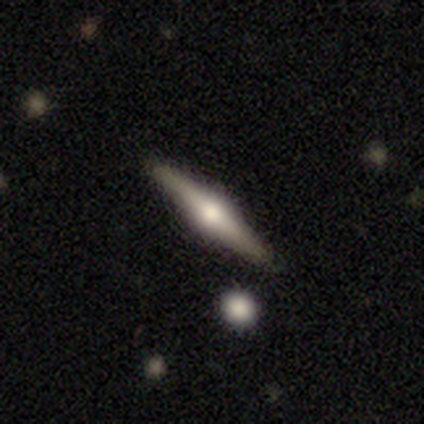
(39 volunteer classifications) smooth-or-featured: featured or disk: 87% | smooth: 13% | star or artifact: 0%
  disk-edge-on: yes: 100% | no: 0%
    edge-on-bulge: rounded: 97% | boxy: 3% | none: 0%
  merging: none: 97% | merger: 3% | minor disturbance: 0% | major disturbance: 0%